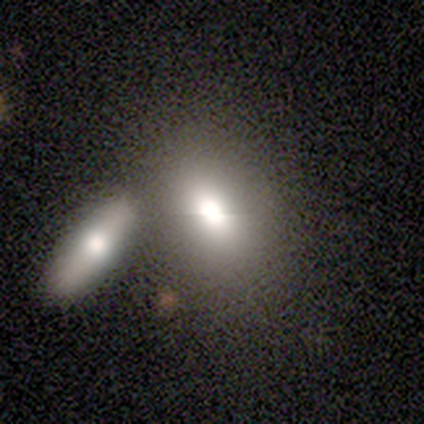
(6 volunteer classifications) This is clearly a smooth galaxy (83%). How rounded: clearly in between (100%). Merging: marginally merger (40%).